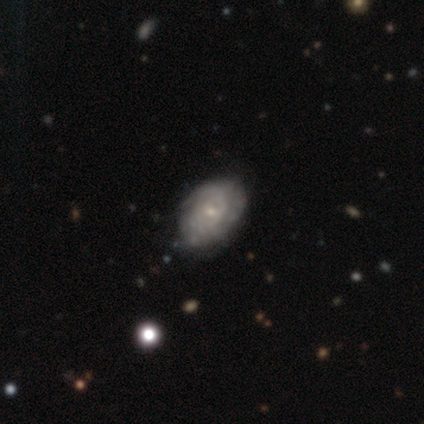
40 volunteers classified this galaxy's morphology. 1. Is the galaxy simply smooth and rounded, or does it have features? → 60% featured or disk, 30% smooth, 10% star or artifact.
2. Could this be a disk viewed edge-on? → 92% no, 8% yes.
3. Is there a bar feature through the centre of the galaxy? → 86% no, 9% weak, 5% strong.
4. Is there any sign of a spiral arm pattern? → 82% yes, 18% no.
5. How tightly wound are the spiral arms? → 78% tight, 11% medium, 11% loose.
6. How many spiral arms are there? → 72% can't tell, 11% 2, 11% 3, 6% 1, 0% 4, 0% more than 4.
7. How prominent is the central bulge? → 86% small, 14% moderate, 0% dominant, 0% large, 0% none.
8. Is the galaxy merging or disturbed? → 83% none, 14% minor disturbance, 3% major disturbance, 0% merger.